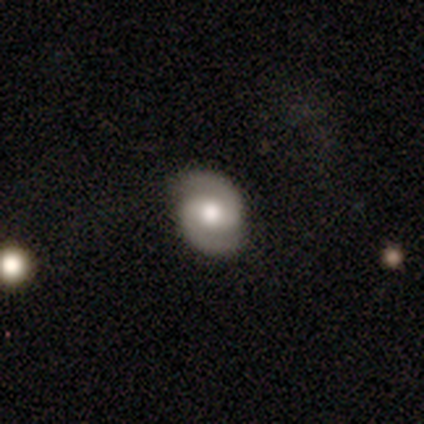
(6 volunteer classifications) Morphology: type=featured or disk (100%); edge-on=no (100%); bar=strong (33%, tied with weak and no); spiral arms=yes (83%); winding=tight (40%, tied with medium); arm count=2 (100%); bulge=moderate (67%); merging=none (83%).